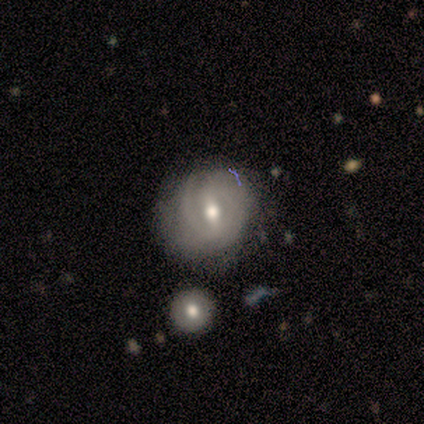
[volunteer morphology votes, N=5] Overall: featured or disk (100%). Edge-on disk: no (80%). Bar: weak (75%). Spiral arms: yes (100%). Spiral arm count: 2 (50%; 3 25%). Spiral winding: tight (100%). Bulge size: moderate (75%). Merging: none (60%; minor disturbance 20%).